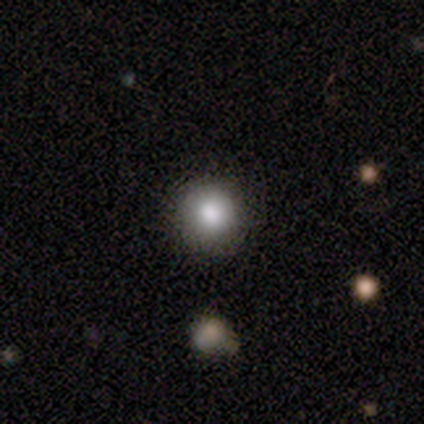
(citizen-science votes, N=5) smooth-or-featured: smooth: 100% | featured or disk: 0% | star or artifact: 0%
  how-rounded: round: 100% | in between: 0% | cigar-shaped: 0%
  merging: none: 80% | minor disturbance: 20% | major disturbance: 0% | merger: 0%